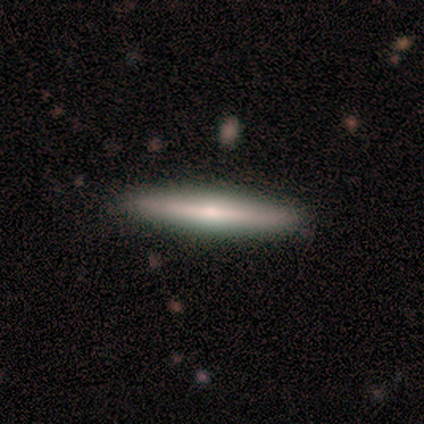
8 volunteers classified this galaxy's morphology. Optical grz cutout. It shows a featured or disk galaxy (62%) viewed edge-on (100%) with a rounded central bulge (100%). Merging: none (100%).